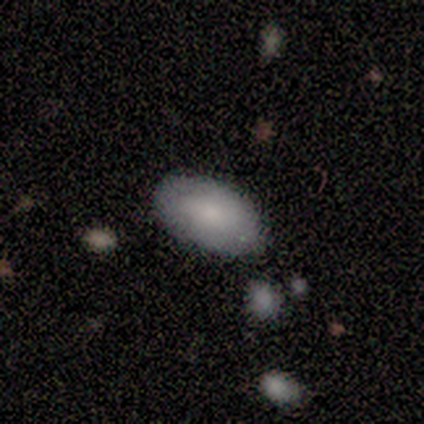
This appears to be a smooth galaxy with no disk features (100%) that is in between round and cigar-shaped (75%). Merging: none (100%).